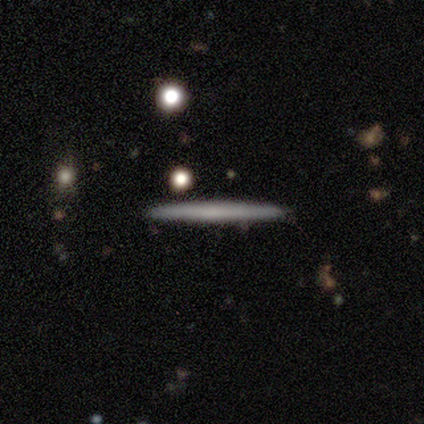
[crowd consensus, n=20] Smooth or featured: smooth — 60% (featured or disk — 40%)
How rounded: cigar-shaped — 100%
Merging: none — 90% (minor disturbance — 10%)